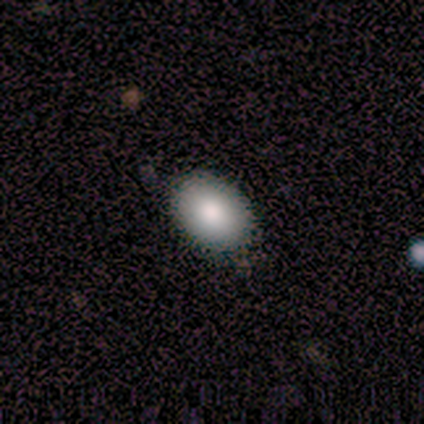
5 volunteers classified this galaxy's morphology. smooth_or_featured: smooth (p=1.00)
how_rounded: in between (p=0.80) [alt: round p=0.20]
merging: none (p=1.00)